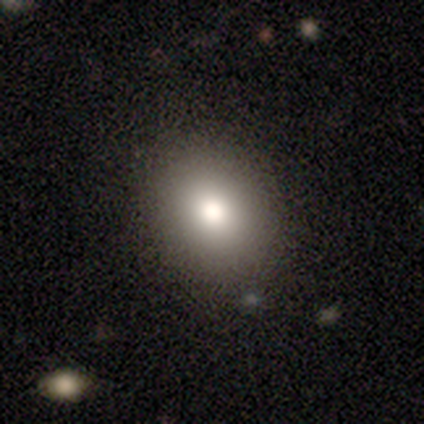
Q: Smooth or featured?
A: smooth (100%)
Q: How rounded?
A: in between (60%); runner-up: round (40%)
Q: Merging?
A: none (100%)